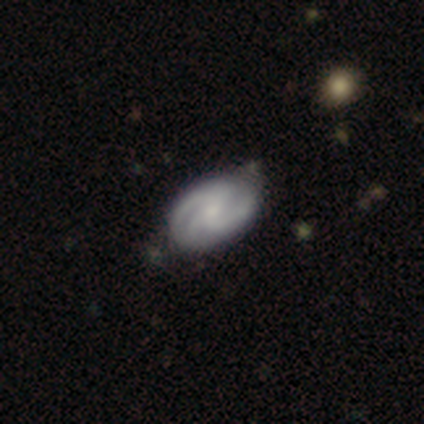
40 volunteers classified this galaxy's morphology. type=featured or disk (82%); edge-on=no (94%); bar=no (68%); spiral arms=yes (100%); winding=medium (55%); arm count=3 (71%); bulge=small (52%); merging=none (49%).